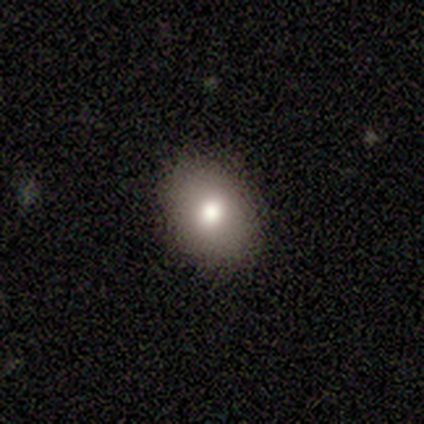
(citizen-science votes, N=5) Smooth or featured? 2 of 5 (40%, tied with featured or disk) said smooth. How rounded? 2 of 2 (100%) said in between. Merging? 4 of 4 (100%) said none.